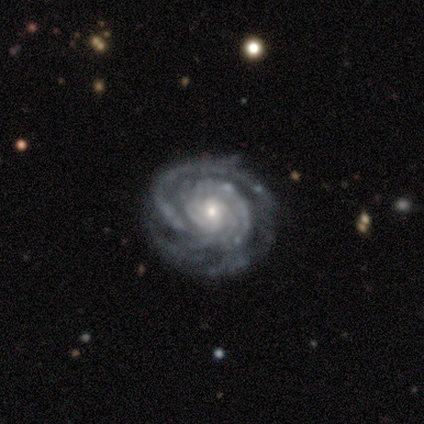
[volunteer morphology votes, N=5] Smooth or featured? 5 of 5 (100%) said featured or disk. Edge-on disk? 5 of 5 (100%) said no. Bar? 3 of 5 (60%) said no. Spiral arms? 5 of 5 (100%) said yes. Spiral winding? 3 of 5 (60%) said tight. Spiral arm count? 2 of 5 (40%) said can't tell. Bulge size? 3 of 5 (60%) said small. Merging? 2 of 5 (40%) said none.